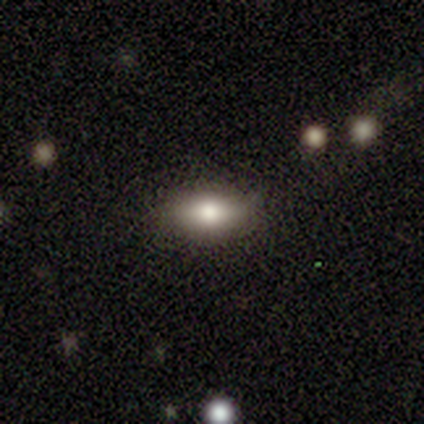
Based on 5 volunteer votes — smooth-or-featured: smooth: 80% | star or artifact: 20% | featured or disk: 0%
  how-rounded: in between: 100% | round: 0% | cigar-shaped: 0%
  merging: minor disturbance: 50% | none: 25% | major disturbance: 25% | merger: 0%